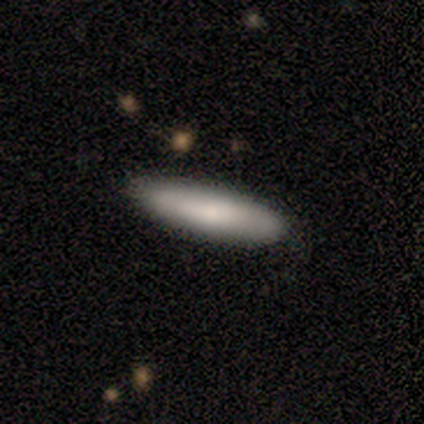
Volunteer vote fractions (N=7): Volunteers were most divided on "how rounded": cigar-shaped: 60%, in between: 40%, round: 0%. More confident: merging — none (86%); smooth or featured — smooth (71%).